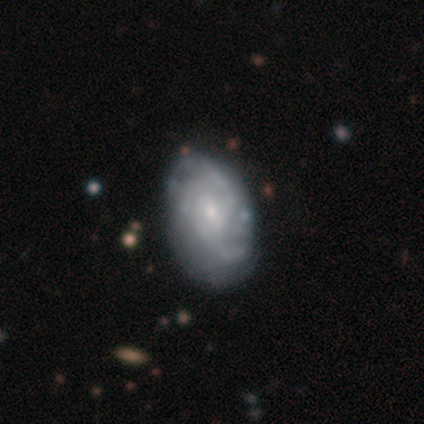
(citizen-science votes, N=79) smooth-or-featured: featured or disk: 84% | smooth: 13% | star or artifact: 4%
  disk-edge-on: no: 97% | yes: 3%
    bar: no: 64% | weak: 33% | strong: 3%
    has-spiral-arms: yes: 97% | no: 3%
      spiral-winding: tight: 52% | medium: 40% | loose: 8%
      spiral-arm-count: 3: 52% | can't tell: 32% | 4: 10% | 2: 6% | 1: 0% | more than 4: 0%
    bulge-size: small: 75% | moderate: 23% | none: 2% | dominant: 0% | large: 0%
  merging: none: 34% | minor disturbance: 13% | major disturbance: 3% | merger: 0%